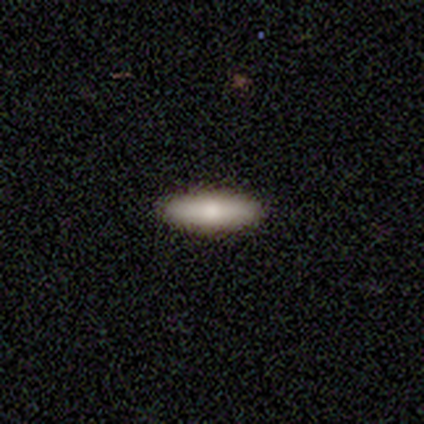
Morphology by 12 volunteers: Smooth or featured? smooth (92%)
How rounded? in between (64%)
Merging? none (91%)